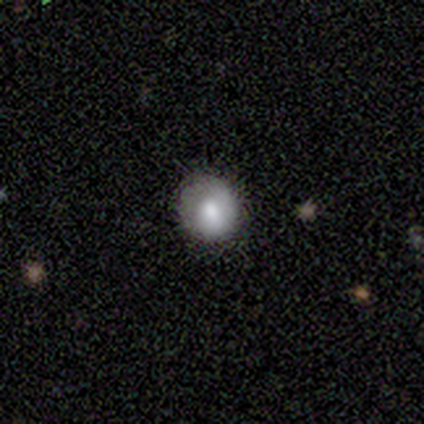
A smooth galaxy with no disk features (60%) that is round (67%). Merging: none (80%).